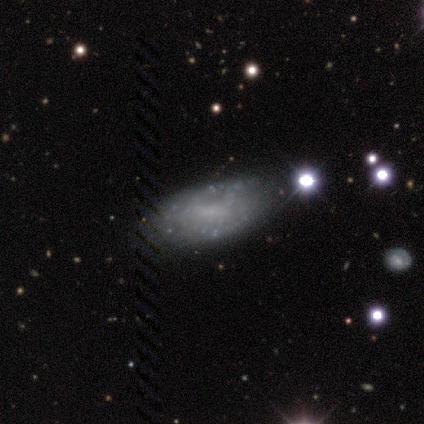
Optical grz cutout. It shows a featured or disk galaxy (51%) with no bar (45%), no spiral arms (55%) and no central bulge (65%). Merging: none (43%).